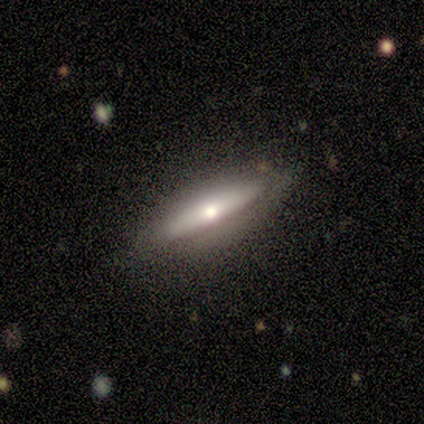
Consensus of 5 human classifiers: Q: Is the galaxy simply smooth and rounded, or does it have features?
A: featured or disk — 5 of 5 (100%).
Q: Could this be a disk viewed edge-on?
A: yes — 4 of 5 (80%).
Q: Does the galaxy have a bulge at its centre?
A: rounded — 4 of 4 (100%).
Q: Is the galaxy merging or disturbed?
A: none — 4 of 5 (80%).